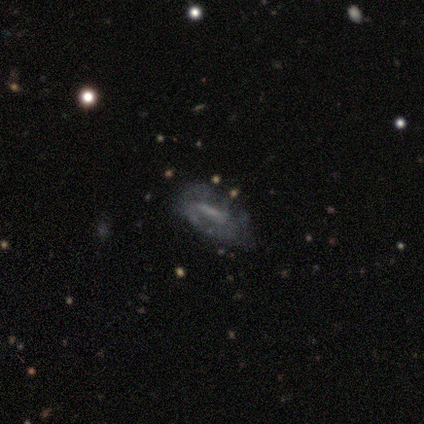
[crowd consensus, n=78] This is likely a featured or disk galaxy (76%). It is clearly not viewed edge-on (90%). Bar: possibly weak (47%). Spiral arm pattern: possibly no (58%). Central bulge: possibly none (53%). Merging: marginally none (32%).